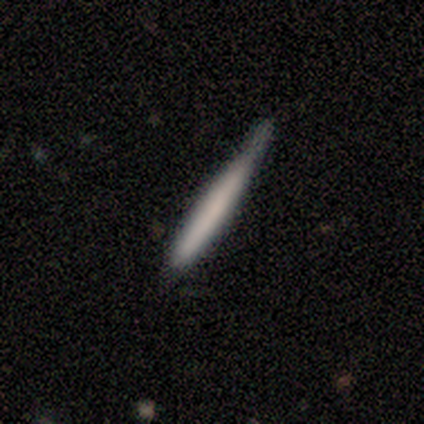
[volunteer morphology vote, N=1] This appears to be a smooth galaxy with no disk features (100%) that is cigar-shaped (100%). Merging: none (100%).